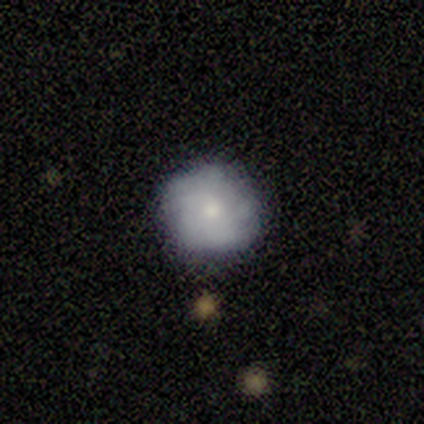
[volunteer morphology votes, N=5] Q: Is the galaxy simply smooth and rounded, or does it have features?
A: featured or disk — 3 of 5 (60%).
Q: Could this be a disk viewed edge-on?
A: no — 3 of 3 (100%).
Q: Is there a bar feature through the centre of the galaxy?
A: no — 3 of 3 (100%).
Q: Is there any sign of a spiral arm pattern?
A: no — 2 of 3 (67%).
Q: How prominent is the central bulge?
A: moderate — 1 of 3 (33%, tied with small and none).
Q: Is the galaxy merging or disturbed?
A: none — 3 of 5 (60%).